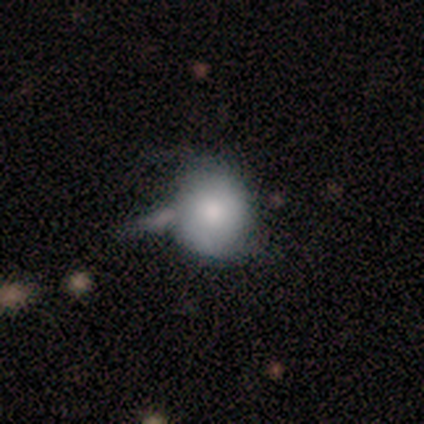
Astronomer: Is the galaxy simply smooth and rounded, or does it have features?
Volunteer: smooth — 67%.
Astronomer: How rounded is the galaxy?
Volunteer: round — 83%.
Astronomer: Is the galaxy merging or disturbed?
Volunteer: minor disturbance — 44% (runner-up: none, 22%).